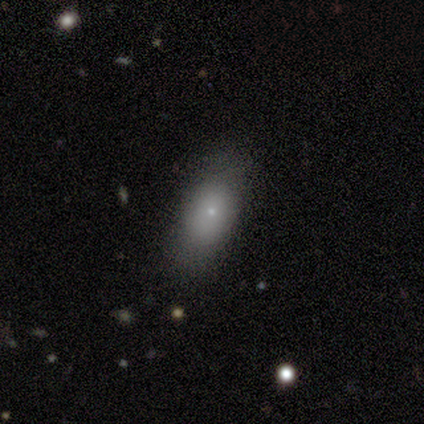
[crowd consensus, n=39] A smooth galaxy with no disk features (74%) that is in between round and cigar-shaped (69%). Merging: none (81%).